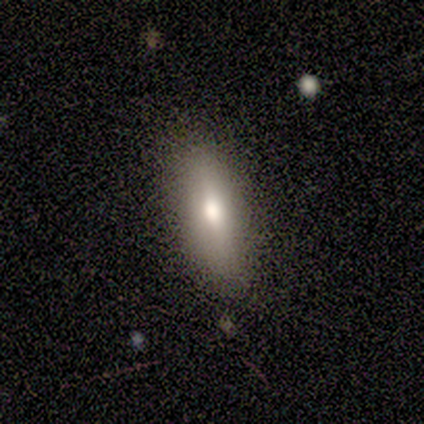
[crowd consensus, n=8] Smooth or featured? 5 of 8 (62%) said smooth. How rounded? 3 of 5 (60%) said in between. Merging? 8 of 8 (100%) said none.